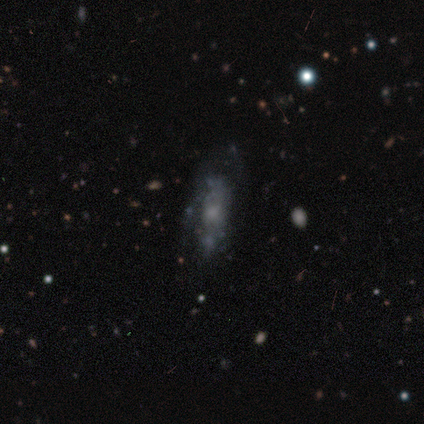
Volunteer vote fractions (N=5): smooth-or-featured: featured or disk: 80% | smooth: 20% | star or artifact: 0%
  disk-edge-on: no: 100% | yes: 0%
    bar: no: 100% | strong: 0% | weak: 0%
    has-spiral-arms: no: 75% | yes: 25%
    bulge-size: none: 50% | moderate: 25% | small: 25% | dominant: 0% | large: 0%
  merging: none: 40% (tied) | major disturbance: 40% (tied) | minor disturbance: 20% | merger: 0%